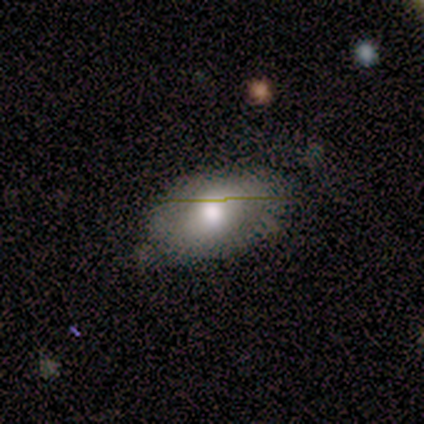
This appears to be a smooth galaxy with no disk features (60%) that is in between round and cigar-shaped (100%). Merging: none (60%).